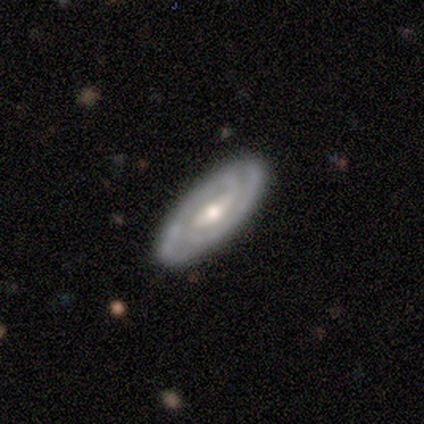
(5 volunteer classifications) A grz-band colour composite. It shows a featured or disk galaxy (80%) with a strong bar (33%, tied with weak and no), 2 (67%) tight (100%) spiral arms (100%) and a moderate central bulge (100%). Merging: none (100%).